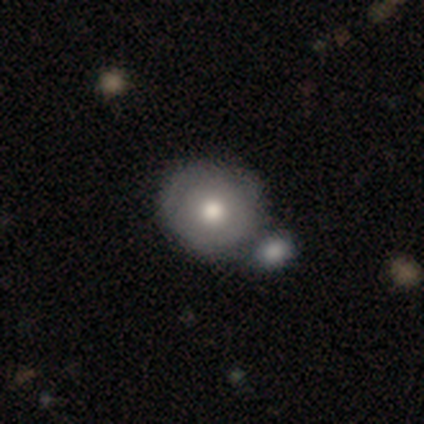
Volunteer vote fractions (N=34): A smooth galaxy with no disk features (76%) that is round (88%). Merging: merger (52%).